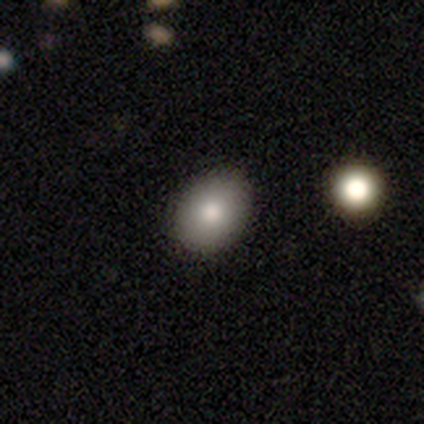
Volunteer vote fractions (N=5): Volunteers were most divided on "how rounded": in between: 75%, round: 25%, cigar-shaped: 0%. More confident: merging — none (100%); smooth or featured — smooth (80%).